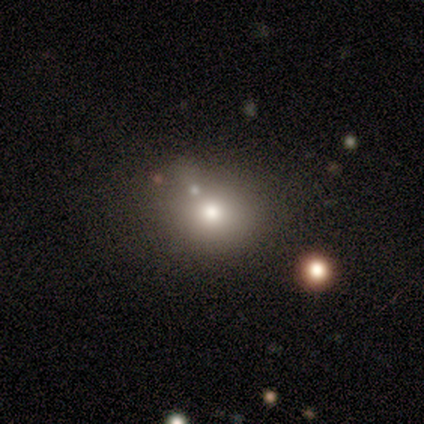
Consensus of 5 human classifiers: Volunteers were most divided on "smooth or featured": smooth: 60%, featured or disk: 40%, star or artifact: 0%. More confident: merging — minor disturbance (80%); how rounded — in between (67%).